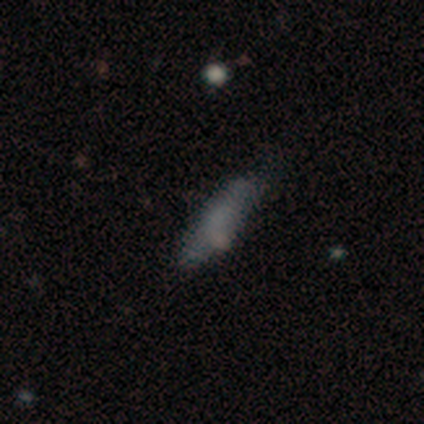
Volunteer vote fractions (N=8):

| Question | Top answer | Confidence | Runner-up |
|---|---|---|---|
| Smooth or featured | smooth | 88% | featured or disk (12%) |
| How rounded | cigar-shaped | 71% | in between (29%) |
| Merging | none | 88% | minor disturbance (12%) |